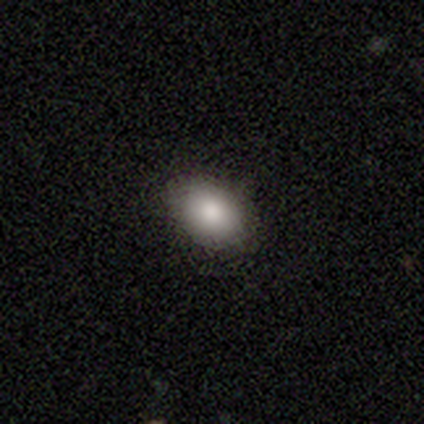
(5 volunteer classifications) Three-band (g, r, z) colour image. It shows a smooth galaxy with no disk features (100%) that is in between round and cigar-shaped (100%). Merging: none (100%).